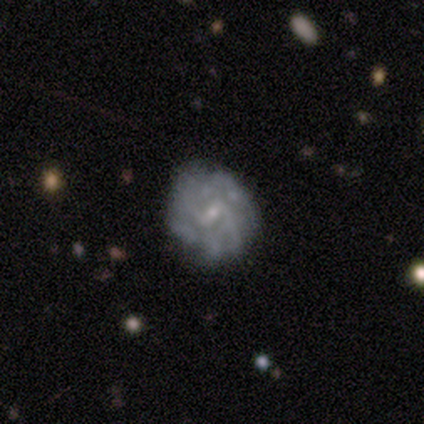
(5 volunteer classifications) Smooth or featured? featured or disk (60%)
Edge-on disk? no (100%)
Bar? weak (100%)
Spiral arms? yes (67%)
Spiral winding? medium (50%, tied with loose)
Spiral arm count? 2 (100%)
Bulge size? small (100%)
Merging? none (50%, tied with minor disturbance)